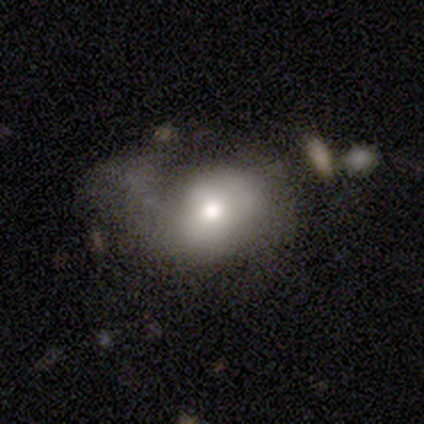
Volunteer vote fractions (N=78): Smooth or featured: smooth — 64% (featured or disk — 29%)
How rounded: in between — 50% (round — 48%)
Merging: major disturbance — 25% (minor disturbance — 14%)